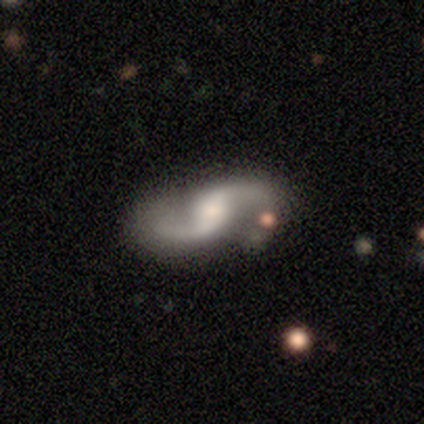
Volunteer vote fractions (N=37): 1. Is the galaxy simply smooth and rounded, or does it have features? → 92% featured or disk, 5% star or artifact, 3% smooth.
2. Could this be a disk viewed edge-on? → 94% no, 6% yes.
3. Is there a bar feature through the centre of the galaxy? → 47% weak, 31% no, 22% strong.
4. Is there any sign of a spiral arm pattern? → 97% yes, 3% no.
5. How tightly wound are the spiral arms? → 84% loose, 16% medium, 0% tight.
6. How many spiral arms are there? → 97% 2, 3% 1, 0% 3, 0% 4, 0% more than 4, 0% can't tell.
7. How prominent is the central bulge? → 50% moderate, 44% small, 3% large, 3% none, 0% dominant.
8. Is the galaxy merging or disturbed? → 77% none, 9% minor disturbance, 9% major disturbance, 6% merger.